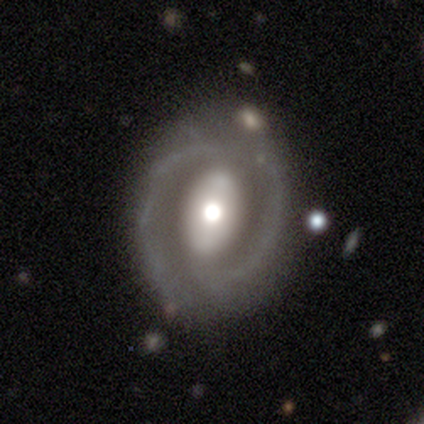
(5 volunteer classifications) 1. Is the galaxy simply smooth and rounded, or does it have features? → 80% featured or disk, 20% smooth, 0% star or artifact.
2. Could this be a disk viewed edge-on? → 100% no, 0% yes.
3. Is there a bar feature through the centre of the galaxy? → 50% strong (tied), 50% no (tied), 0% weak.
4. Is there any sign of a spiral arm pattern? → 75% yes, 25% no.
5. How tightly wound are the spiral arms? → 67% tight, 33% loose, 0% medium.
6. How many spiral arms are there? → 100% 2, 0% 1, 0% 3, 0% 4, 0% more than 4, 0% can't tell.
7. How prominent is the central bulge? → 75% moderate, 25% large, 0% dominant, 0% small, 0% none.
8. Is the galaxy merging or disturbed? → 60% minor disturbance, 40% none, 0% major disturbance, 0% merger.